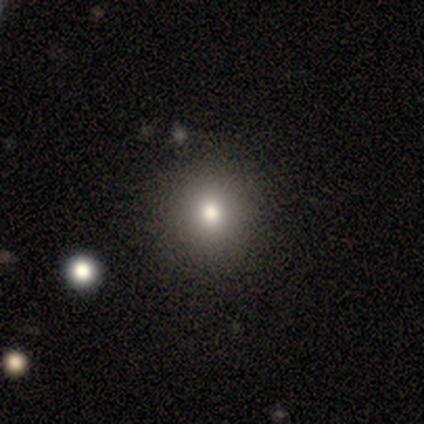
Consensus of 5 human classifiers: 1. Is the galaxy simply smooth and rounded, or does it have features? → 80% smooth, 20% star or artifact, 0% featured or disk.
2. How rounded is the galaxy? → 75% in between, 25% round, 0% cigar-shaped.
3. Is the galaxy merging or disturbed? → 50% none, 25% minor disturbance, 25% merger, 0% major disturbance.